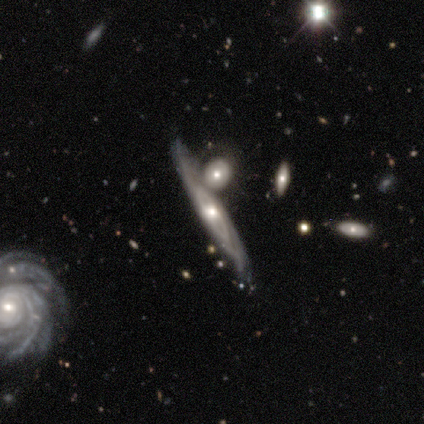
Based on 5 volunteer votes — Smooth or featured? 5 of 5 (100%) said featured or disk. Edge-on disk? 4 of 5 (80%) said yes. Edge-on bulge? 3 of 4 (75%) said rounded. Merging? 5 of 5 (100%) said merger.